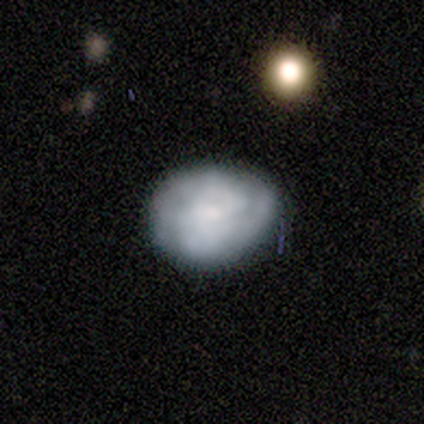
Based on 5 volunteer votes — smooth_or_featured: smooth (p=0.60) [alt: featured or disk p=0.40]
how_rounded: round (p=0.67) [alt: in between p=0.33]
merging: none (p=0.80) [alt: minor disturbance p=0.20]